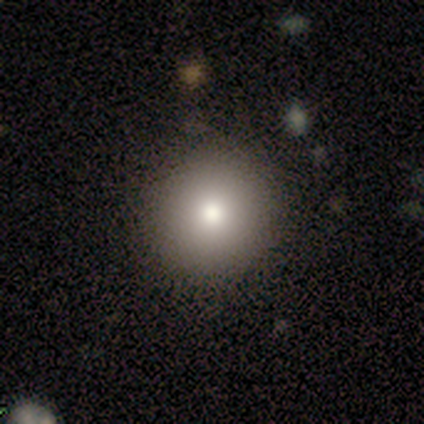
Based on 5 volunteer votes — Smooth or featured? 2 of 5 (40%, tied with featured or disk) said smooth. How rounded? 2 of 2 (100%) said round. Merging? 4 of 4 (100%) said none.